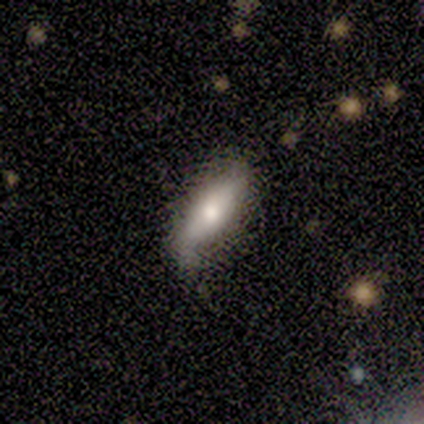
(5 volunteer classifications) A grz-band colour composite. It shows a smooth galaxy with no disk features (60%) that is round (33%, tied with in between and cigar-shaped). Merging: minor disturbance (80%).